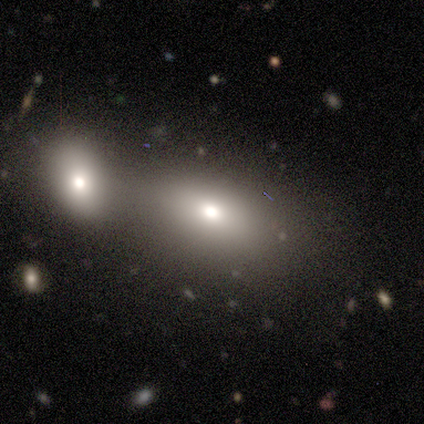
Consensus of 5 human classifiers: smooth_or_featured: smooth (p=0.80) [alt: featured or disk p=0.20]
how_rounded: in between (p=1.00)
merging: merger (p=0.60) [alt: none p=0.40]